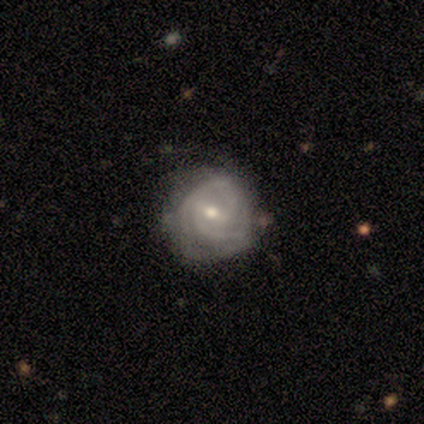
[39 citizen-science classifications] This appears to be a featured or disk galaxy (90%) with a weak bar (69%), 2 (52%) tight (70%) spiral arms (94%) and a moderate central bulge (54%). Merging: none (45%).